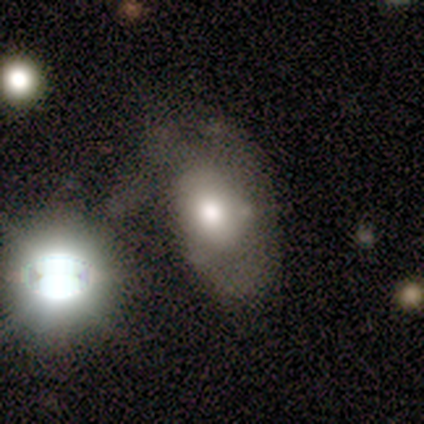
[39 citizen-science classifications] smooth_or_featured: smooth (p=0.44) [alt: featured or disk p=0.33]
how_rounded: in between (p=0.88) [alt: round p=0.12]
merging: none (p=0.30) [tied with: major disturbance p=0.30]